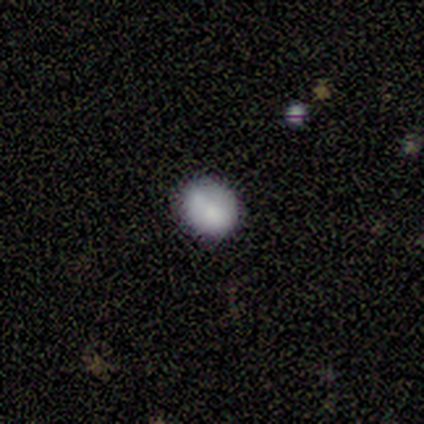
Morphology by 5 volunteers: smooth_or_featured: smooth (p=1.00)
how_rounded: round (p=0.80) [alt: in between p=0.20]
merging: none (p=1.00)